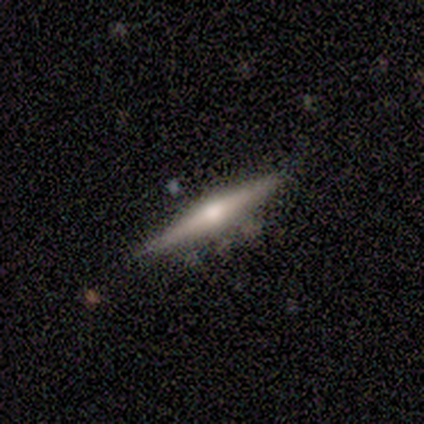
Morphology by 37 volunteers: A featured or disk galaxy (76%) viewed edge-on (96%) with a rounded central bulge (96%). Merging: none (83%).